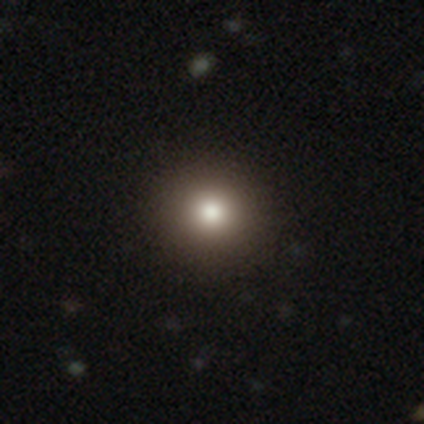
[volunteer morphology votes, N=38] Smooth or featured? smooth (71%)
How rounded? round (96%)
Merging? none (100%)